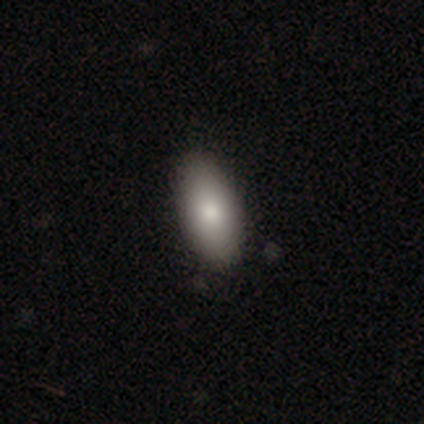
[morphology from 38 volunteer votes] Smooth or featured? smooth (87%)
How rounded? in between (94%)
Merging? none (65%)